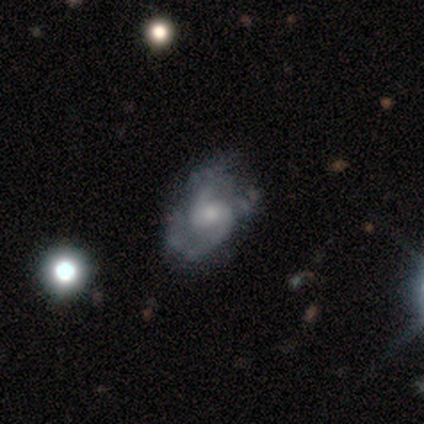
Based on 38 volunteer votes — Q: Smooth or featured?
A: featured or disk (87%); runner-up: smooth (13%)
Q: Edge-on disk?
A: no (91%); runner-up: yes (9%)
Q: Bar?
A: no (53%); runner-up: weak (43%)
Q: Spiral arms?
A: yes (93%); runner-up: no (7%)
Q: Spiral winding?
A: medium (54%); runner-up: loose (32%)
Q: Spiral arm count?
A: 2 (86%); runner-up: can't tell (11%)
Q: Bulge size?
A: moderate (43%); runner-up: small (37%)
Q: Merging?
A: none (55%); runner-up: minor disturbance (26%)